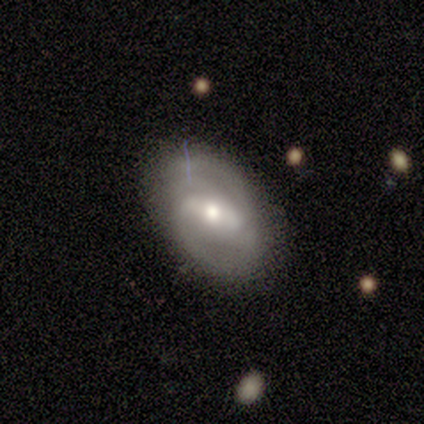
smooth-or-featured: featured or disk: 67% | smooth: 33% | star or artifact: 0%
  disk-edge-on: no: 100% | yes: 0%
    bar: strong: 100% | weak: 0% | no: 0%
    has-spiral-arms: yes: 100% | no: 0%
      spiral-winding: medium: 100% | tight: 0% | loose: 0%
      spiral-arm-count: 2: 100% | 1: 0% | 3: 0% | 4: 0% | more than 4: 0% | can't tell: 0%
    bulge-size: large: 50% (tied) | moderate: 50% (tied) | dominant: 0% | small: 0% | none: 0%
  merging: none: 100% | minor disturbance: 0% | major disturbance: 0% | merger: 0%